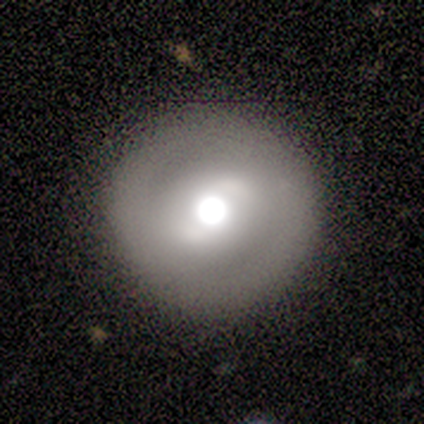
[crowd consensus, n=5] Overall: smooth (40%, tied with featured or disk). How rounded: round (100%). Merging: none (100%).